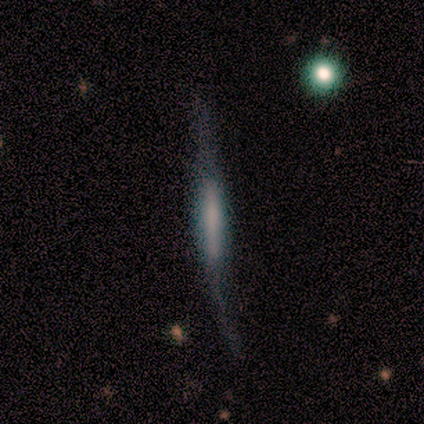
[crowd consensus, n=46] Morphology: type=featured or disk (70%); edge-on=yes (97%); edge-on bulge=boxy (45%, tied with none); merging=minor disturbance (40%).